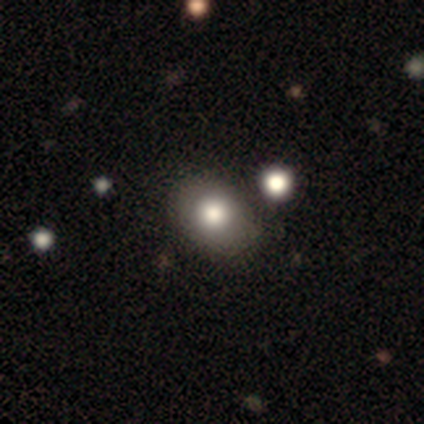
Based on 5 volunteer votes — Volunteers were most divided on "merging": none: 60%, minor disturbance: 20%, major disturbance: 20%, merger: 0%. More confident: how rounded — in between (100%); smooth or featured — smooth (80%).